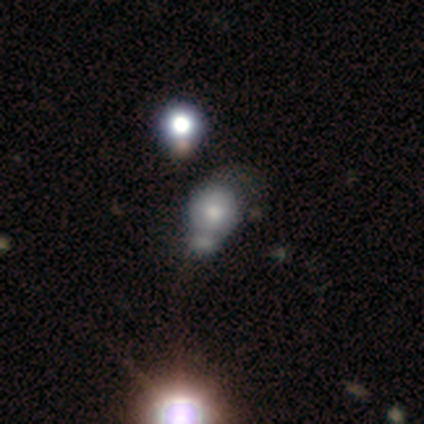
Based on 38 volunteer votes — Volunteers were most divided on "merging": merger: 35%, minor disturbance: 26%, major disturbance: 16%, none: 10%. More confident: how rounded — round (73%); smooth or featured — smooth (58%).